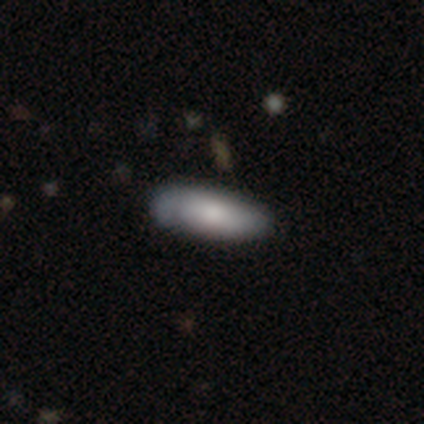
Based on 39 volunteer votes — Smooth or featured? smooth (64%)
How rounded? in between (64%)
Merging? none (74%)